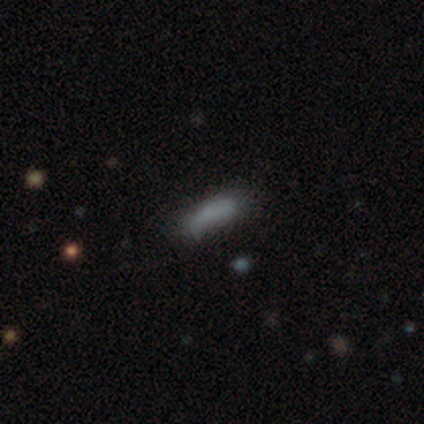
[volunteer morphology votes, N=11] Smooth or featured: smooth — 100%
How rounded: cigar-shaped — 55% (in between — 45%)
Merging: none — 64% (minor disturbance — 18%)